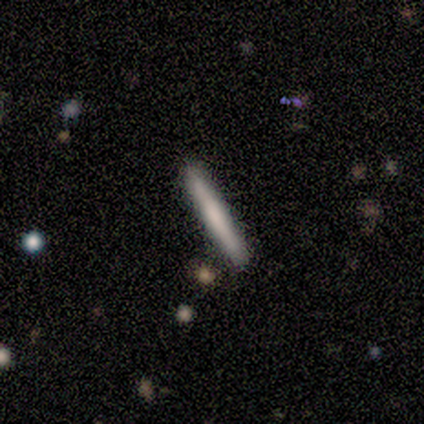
Volunteers were most divided on "smooth or featured": smooth: 80%, featured or disk: 20%, star or artifact: 0%. More confident: how rounded — cigar-shaped (100%); merging — none (100%).